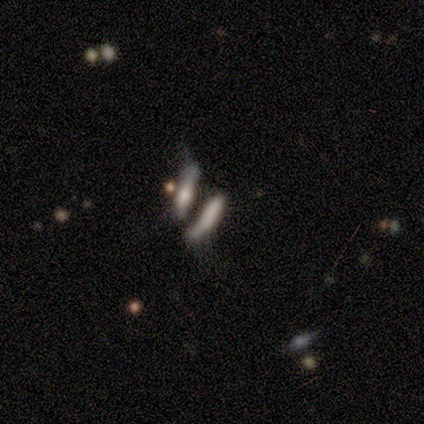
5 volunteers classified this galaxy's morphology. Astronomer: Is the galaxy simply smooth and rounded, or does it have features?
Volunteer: smooth — 80%.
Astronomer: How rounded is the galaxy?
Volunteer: cigar-shaped — 75%.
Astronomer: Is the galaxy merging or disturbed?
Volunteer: none — 50%.